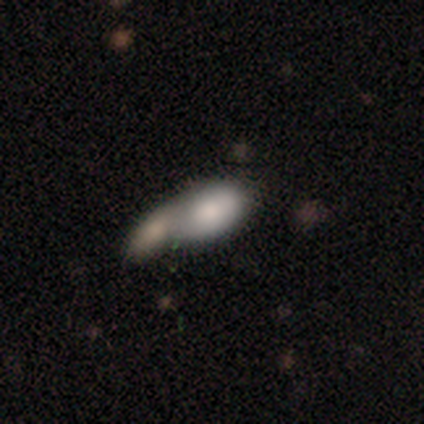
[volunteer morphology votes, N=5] Smooth or featured?
  - smooth: 60% *
  - featured or disk: 40%
  - star or artifact: 0%
How rounded?
  - in between: 100% *
  - round: 0%
  - cigar-shaped: 0%
Merging?
  - merger: 80% *
  - none: 20%
  - minor disturbance: 0%
  - major disturbance: 0%